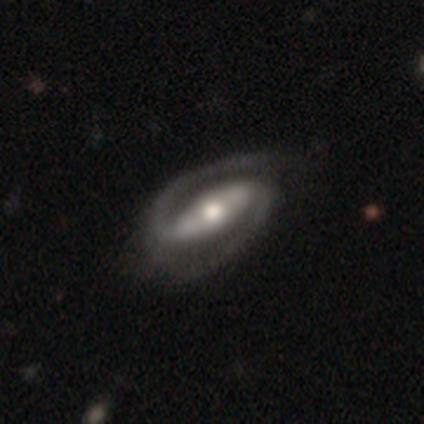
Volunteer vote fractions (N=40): This appears to be a featured or disk galaxy (95%) with a strong bar (76%), 2 (94%) medium (65%) spiral arms (100%) and a moderate central bulge (68%). Merging: none (56%).